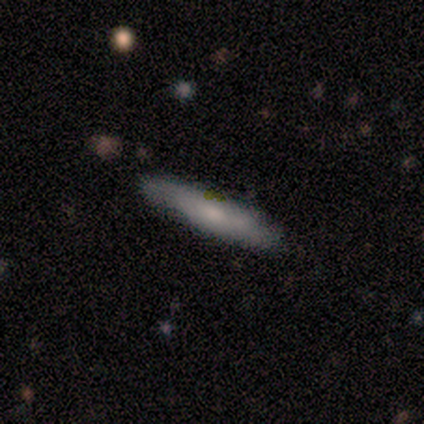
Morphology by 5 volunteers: Smooth or featured? 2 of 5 (40%, tied with featured or disk) said smooth. How rounded? 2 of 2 (100%) said cigar-shaped. Merging? 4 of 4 (100%) said none.